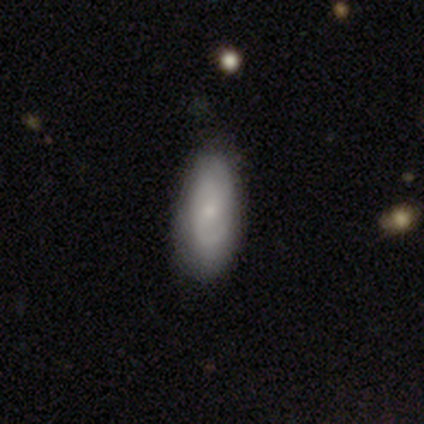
A smooth galaxy with no disk features (55%) that is in between round and cigar-shaped (81%).

Vote fractions:
- Smooth or featured? smooth: 55% / featured or disk: 45% / star or artifact: 0%
- How rounded? in between: 81% / cigar-shaped: 19% / round: 0%
- Merging? none: 74% / minor disturbance: 21% / major disturbance: 5% / merger: 0%